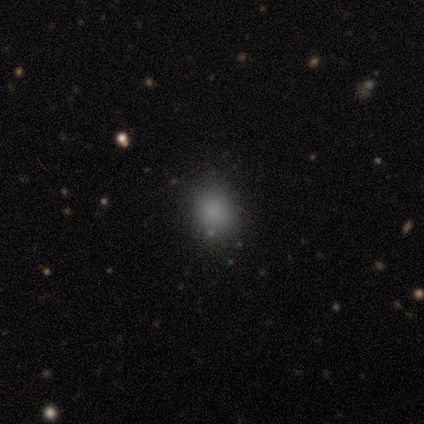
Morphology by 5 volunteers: Smooth or featured?
  - smooth: 100% *
  - featured or disk: 0%
  - star or artifact: 0%
How rounded?
  - round: 60% *
  - in between: 40%
  - cigar-shaped: 0%
Merging?
  - none: 80% *
  - major disturbance: 20%
  - minor disturbance: 0%
  - merger: 0%